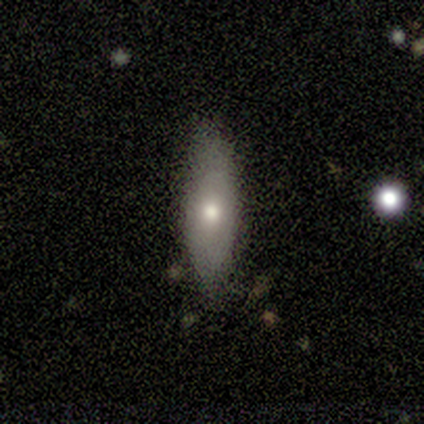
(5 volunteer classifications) featured or disk 60%, smooth 40%, star or artifact 0%. Down the decision tree: edge-on disk — yes (67%); edge-on bulge — rounded (100%); merging — none (100%).